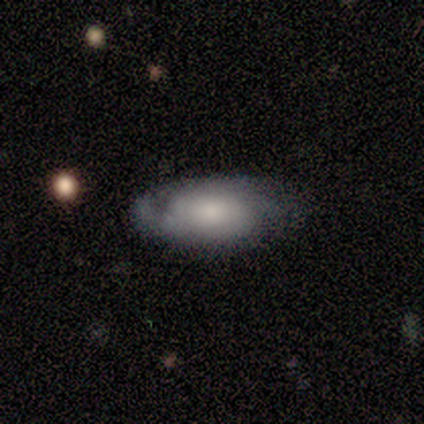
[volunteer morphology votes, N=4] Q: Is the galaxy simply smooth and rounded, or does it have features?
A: smooth — 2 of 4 (50%, tied with featured or disk).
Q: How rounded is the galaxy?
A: in between — 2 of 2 (100%).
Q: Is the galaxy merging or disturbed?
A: none — 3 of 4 (75%).